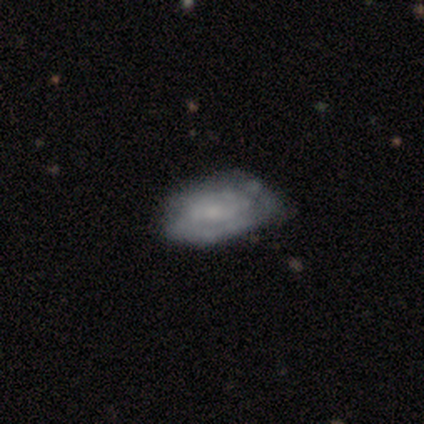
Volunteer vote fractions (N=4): Q: Smooth or featured?
A: smooth (50%); tied with: featured or disk (50%)
Q: How rounded?
A: in between (100%)
Q: Merging?
A: minor disturbance (75%); runner-up: none (25%)